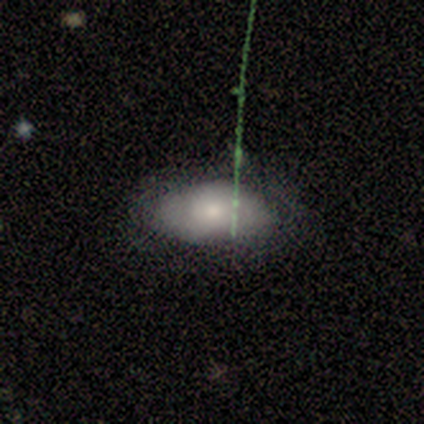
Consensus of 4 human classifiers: smooth_or_featured: smooth (p=0.75) [alt: featured or disk p=0.25]
how_rounded: in between (p=1.00)
merging: none (p=0.50) [tied with: minor disturbance p=0.50]